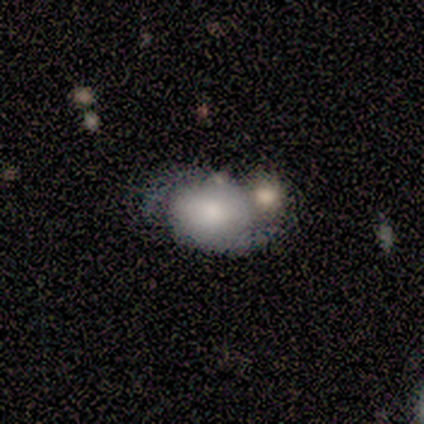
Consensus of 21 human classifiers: smooth_or_featured: featured or disk (p=0.57) [alt: smooth p=0.38]
disk_edge_on: no (p=1.00)
bar: no (p=0.67) [alt: weak p=0.33]
has_spiral_arms: yes (p=1.00)
spiral_winding: medium (p=0.50) [alt: loose p=0.33]
spiral_arm_count: 2 (p=1.00)
bulge_size: large (p=0.58) [alt: moderate p=0.17]
merging: none (p=0.45) [alt: minor disturbance p=0.30]